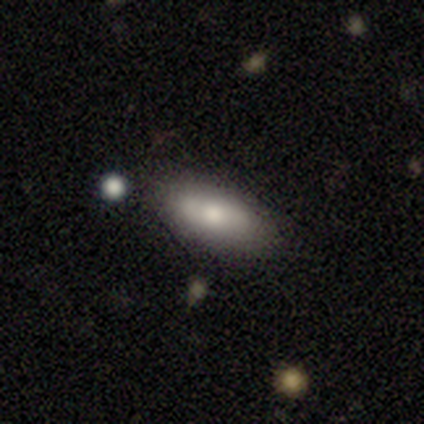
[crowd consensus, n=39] This is possibly a smooth galaxy (59%). How rounded: likely in between (61%). Merging: likely none (77%).